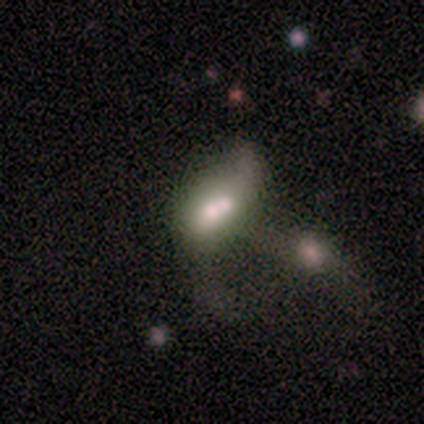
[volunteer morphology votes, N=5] Smooth or featured: smooth — 40% (tied with star or artifact — 40%)
How rounded: in between — 100%
Merging: merger — 100%